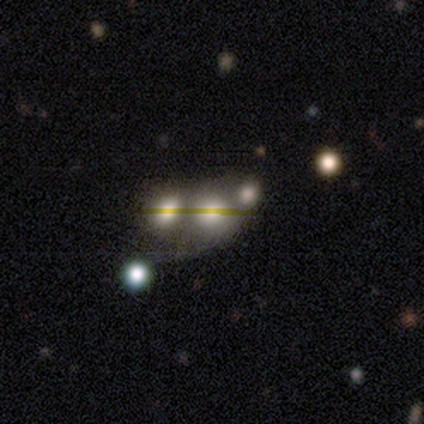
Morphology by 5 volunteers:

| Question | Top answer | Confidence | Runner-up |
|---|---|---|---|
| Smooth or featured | smooth | 40% | tied: star or artifact (40%) |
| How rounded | round | 100% | — |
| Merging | merger | 100% | — |